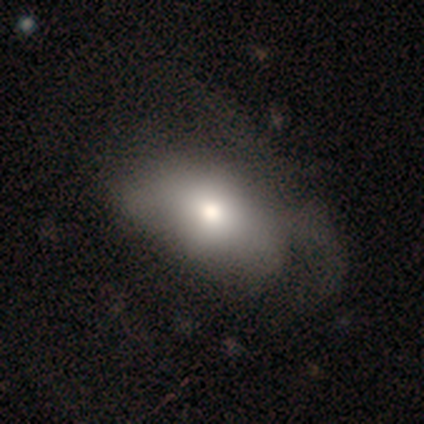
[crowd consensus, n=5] Smooth or featured? smooth (100%)
How rounded? in between (80%)
Merging? major disturbance (60%)